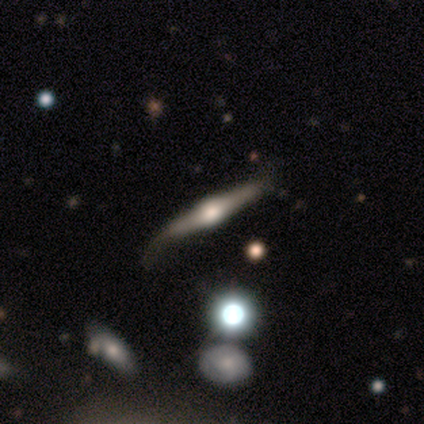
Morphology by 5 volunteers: Volunteers were most divided on "merging": none: 60%, minor disturbance: 40%, major disturbance: 0%, merger: 0%. More confident: smooth or featured — featured or disk (100%); edge-on disk — yes (100%); edge-on bulge — rounded (80%).